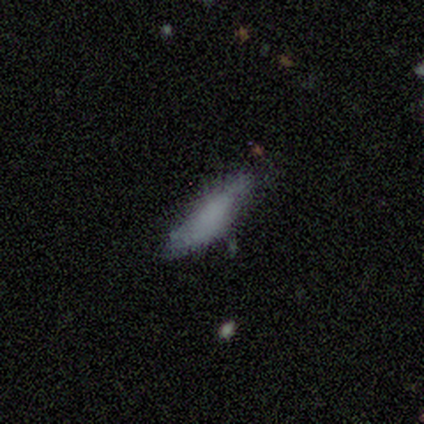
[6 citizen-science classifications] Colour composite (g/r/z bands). It shows a smooth galaxy with no disk features (83%) that is cigar-shaped (80%). Merging: minor disturbance (67%).